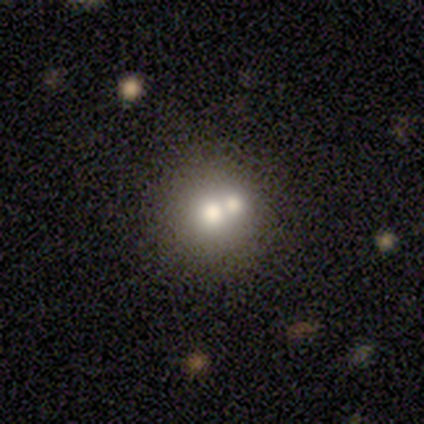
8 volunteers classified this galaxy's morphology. A smooth galaxy with no disk features (62%) that is round (60%).

Vote fractions:
- Smooth or featured? smooth: 62% / featured or disk: 38% / star or artifact: 0%
- How rounded? round: 60% / in between: 40% / cigar-shaped: 0%
- Merging? merger: 75% / none: 12% / minor disturbance: 12% / major disturbance: 0%